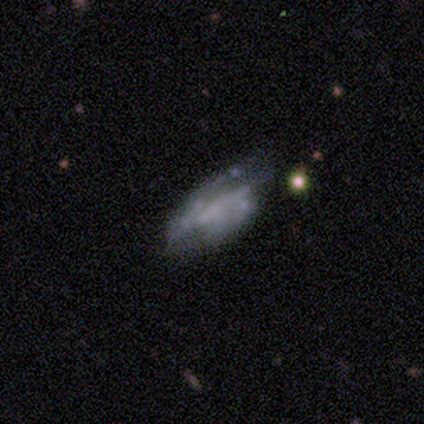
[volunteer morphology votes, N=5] A featured or disk galaxy (80%) with no bar (75%), no spiral arms (75%) and no central bulge (75%).

Vote fractions:
- Smooth or featured? featured or disk: 80% / smooth: 20% / star or artifact: 0%
- Edge-on disk? no: 100% / yes: 0%
- Bar? no: 75% / strong: 25% / weak: 0%
- Spiral arms? no: 75% / yes: 25%
- Bulge size? none: 75% / small: 25% / dominant: 0% / large: 0% / moderate: 0%
- Merging? none: 60% / minor disturbance: 40% / major disturbance: 0% / merger: 0%